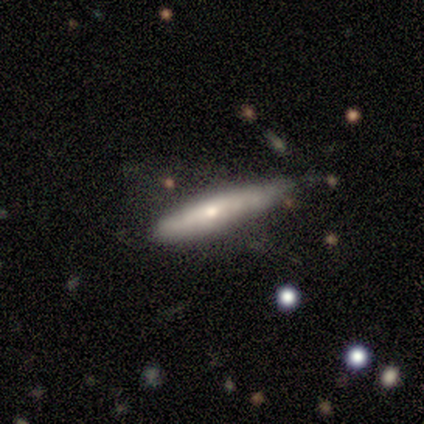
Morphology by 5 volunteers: smooth_or_featured: smooth (p=0.60) [alt: featured or disk p=0.40]
how_rounded: cigar-shaped (p=1.00)
merging: none (p=0.60) [alt: minor disturbance p=0.40]